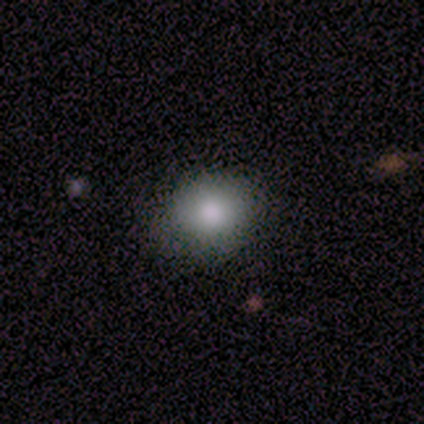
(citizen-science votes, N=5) smooth_or_featured: smooth (p=1.00)
how_rounded: in between (p=0.60) [alt: round p=0.40]
merging: none (p=0.80) [alt: minor disturbance p=0.20]